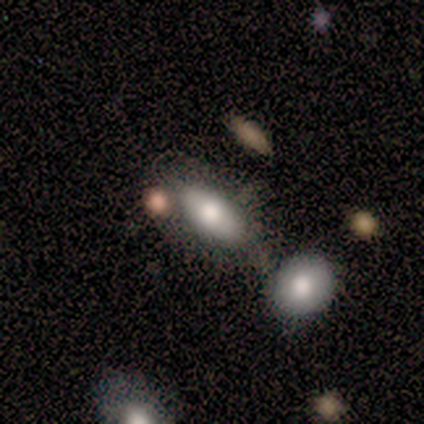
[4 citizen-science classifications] A smooth galaxy with no disk features (50%, tied with star or artifact) that is in between round and cigar-shaped (50%, tied with cigar-shaped). Merging: minor disturbance (50%, tied with major disturbance).